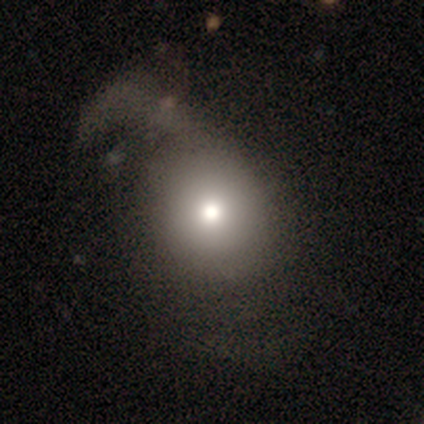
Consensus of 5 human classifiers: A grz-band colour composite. It shows a smooth galaxy with no disk features (80%) that is round (100%). Merging: major disturbance (80%).